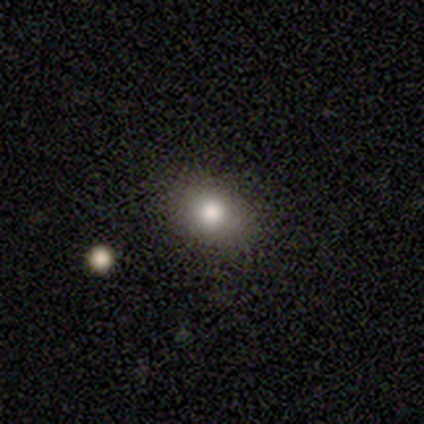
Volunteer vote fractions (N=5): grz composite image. It shows a smooth galaxy with no disk features (80%) that is round (50%, tied with in between). Merging: none (100%).